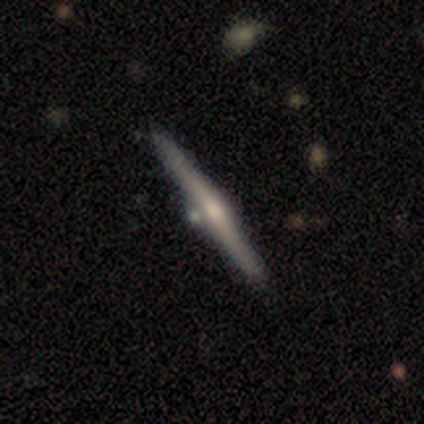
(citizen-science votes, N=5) Q: Smooth or featured?
A: featured or disk (60%); runner-up: smooth (20%)
Q: Edge-on disk?
A: yes (100%)
Q: Edge-on bulge?
A: rounded (100%)
Q: Merging?
A: none (75%); runner-up: minor disturbance (25%)